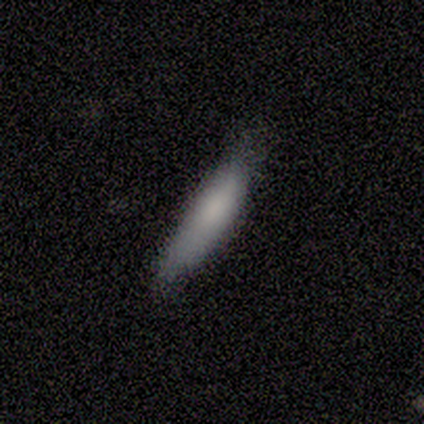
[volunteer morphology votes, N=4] smooth 100%, featured or disk 0%, star or artifact 0%. Down the decision tree: how rounded — cigar-shaped (100%); merging — none (75%).